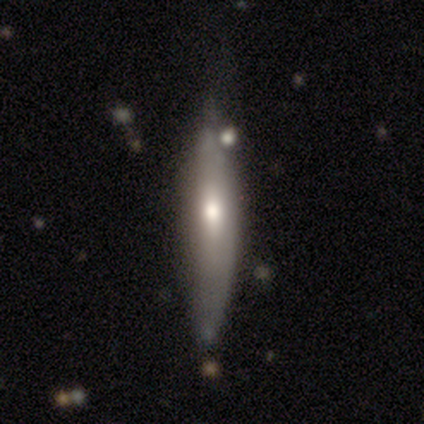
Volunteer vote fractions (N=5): Smooth or featured?
  - featured or disk: 80% *
  - smooth: 20%
  - star or artifact: 0%
Edge-on disk?
  - yes: 100% *
  - no: 0%
Edge-on bulge?
  - rounded: 75% *
  - none: 25%
  - boxy: 0%
Merging?
  - none: 100% *
  - minor disturbance: 0%
  - major disturbance: 0%
  - merger: 0%